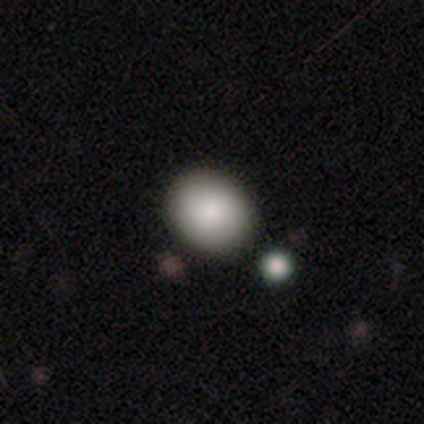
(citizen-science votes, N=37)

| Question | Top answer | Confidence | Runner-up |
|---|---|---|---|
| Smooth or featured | smooth | 86% | featured or disk (8%) |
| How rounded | round | 69% | in between (31%) |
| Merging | none | 74% | merger (11%) |